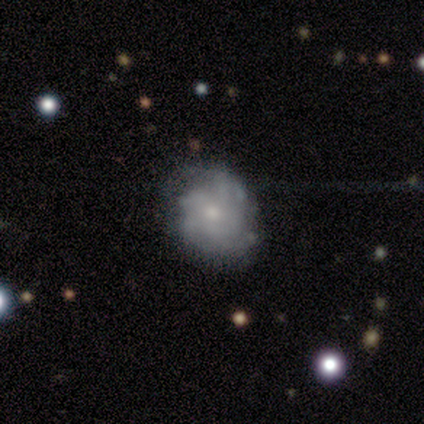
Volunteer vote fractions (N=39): A featured or disk galaxy (62%) with no bar (78%), tight (60%) spiral arms (65%) and a small central bulge (61%). Merging: none (65%).